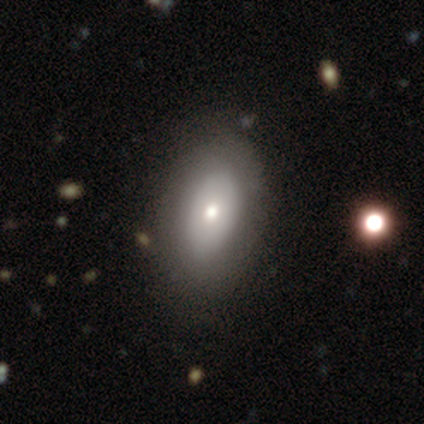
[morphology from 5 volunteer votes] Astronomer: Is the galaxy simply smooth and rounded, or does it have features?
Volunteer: smooth — 100%.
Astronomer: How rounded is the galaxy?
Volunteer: in between — 100%.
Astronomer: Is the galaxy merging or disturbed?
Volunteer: none — 80%.